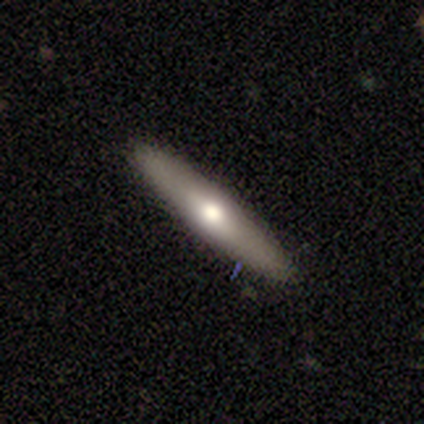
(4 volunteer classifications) Smooth or featured? smooth (50%, tied with featured or disk)
How rounded? in between (50%, tied with cigar-shaped)
Merging? none (100%)